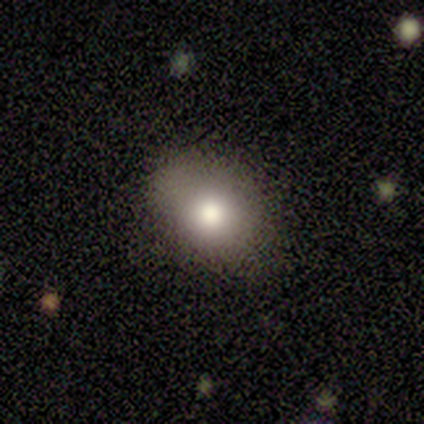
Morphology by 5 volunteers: smooth_or_featured: smooth (p=0.80) [alt: featured or disk p=0.20]
how_rounded: in between (p=0.75) [alt: round p=0.25]
merging: none (p=0.80) [alt: minor disturbance p=0.20]